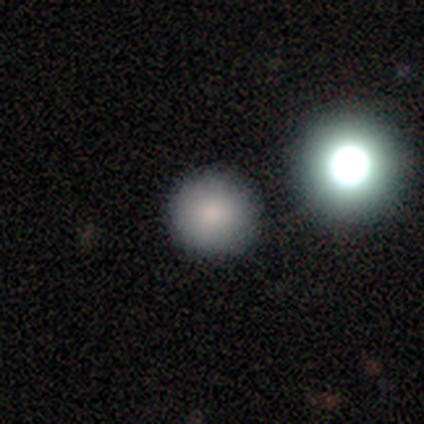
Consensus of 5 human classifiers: A smooth galaxy with no disk features (60%) that is round (100%).

Vote fractions:
- Smooth or featured? smooth: 60% / featured or disk: 20% / star or artifact: 20%
- How rounded? round: 100% / in between: 0% / cigar-shaped: 0%
- Merging? none: 100% / minor disturbance: 0% / major disturbance: 0% / merger: 0%